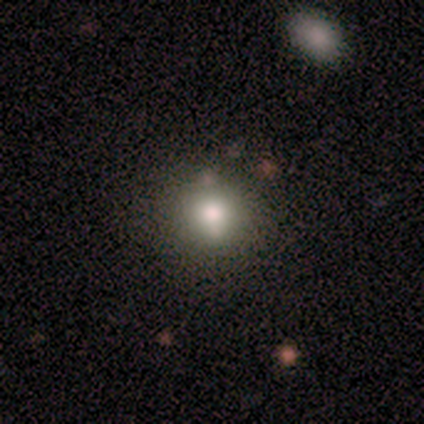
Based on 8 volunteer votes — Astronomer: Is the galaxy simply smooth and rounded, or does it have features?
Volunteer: smooth — 100%.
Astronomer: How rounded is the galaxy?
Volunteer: round — 100%.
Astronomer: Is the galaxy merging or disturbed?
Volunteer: none — 62%.